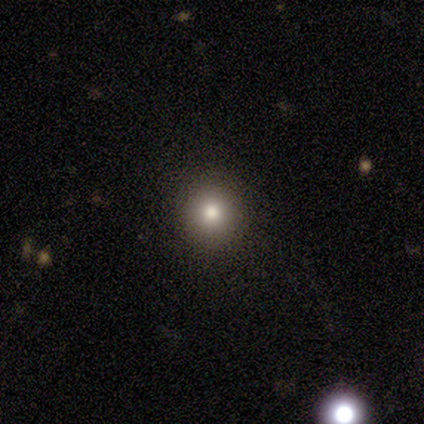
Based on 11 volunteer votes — Smooth or featured: smooth — 100%
How rounded: round — 100%
Merging: none — 91% (minor disturbance — 9%)